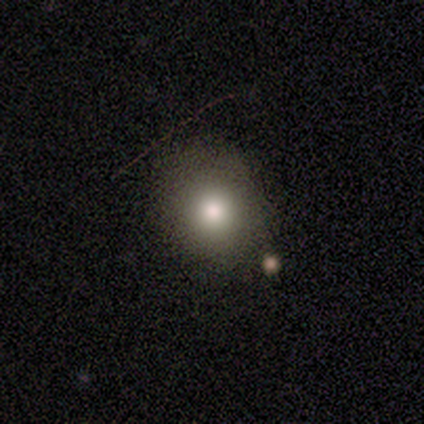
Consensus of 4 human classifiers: Smooth or featured: smooth — 75% (featured or disk — 25%)
How rounded: in between — 67% (round — 33%)
Merging: none — 75% (minor disturbance — 25%)